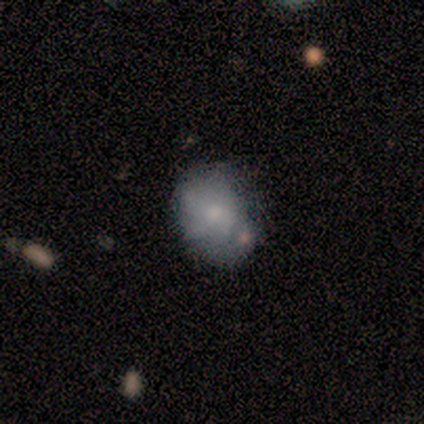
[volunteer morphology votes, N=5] Volunteers were most divided on "smooth or featured": smooth: 60%, featured or disk: 20%, star or artifact: 20%. More confident: how rounded — in between (100%); merging — minor disturbance (75%).